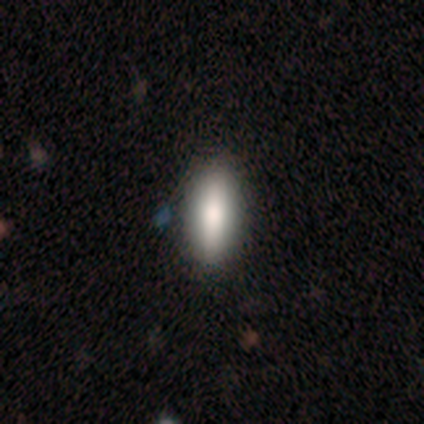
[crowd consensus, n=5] Smooth or featured? 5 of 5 (100%) said smooth. How rounded? 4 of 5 (80%) said cigar-shaped. Merging? 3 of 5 (60%) said none.